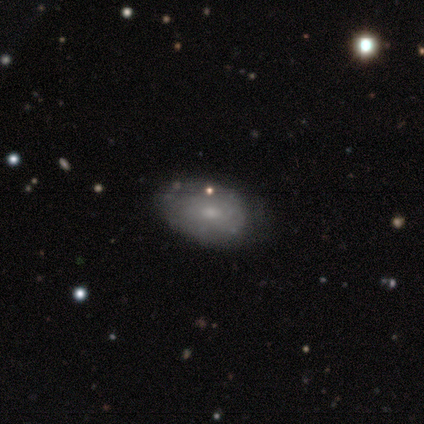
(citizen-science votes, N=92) Smooth or featured? 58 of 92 (63%) said smooth. How rounded? 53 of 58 (91%) said in between. Merging? 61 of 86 (71%) said none.